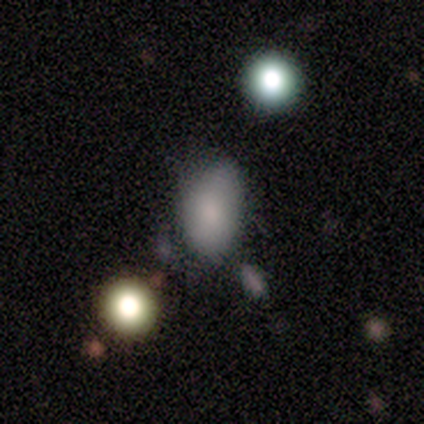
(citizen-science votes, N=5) Volunteers were most divided on "how rounded": in between: 75%, round: 25%, cigar-shaped: 0%. More confident: smooth or featured — smooth (80%); merging — minor disturbance (75%).